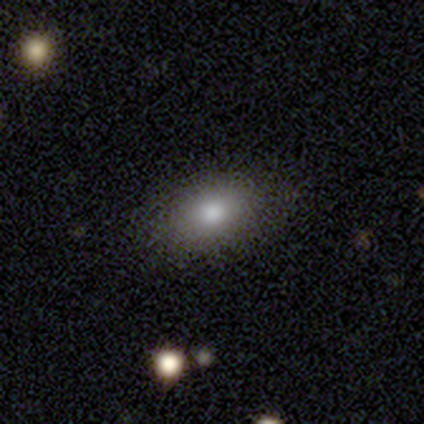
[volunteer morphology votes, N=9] Smooth or featured?
  - smooth: 56% *
  - star or artifact: 33%
  - featured or disk: 11%
How rounded?
  - in between: 100% *
  - round: 0%
  - cigar-shaped: 0%
Merging?
  - none: 100% *
  - minor disturbance: 0%
  - major disturbance: 0%
  - merger: 0%